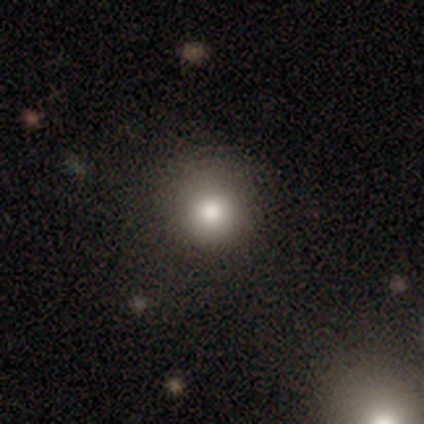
Smooth or featured? 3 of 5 (60%) said smooth. How rounded? 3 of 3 (100%) said round. Merging? 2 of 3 (67%) said none.